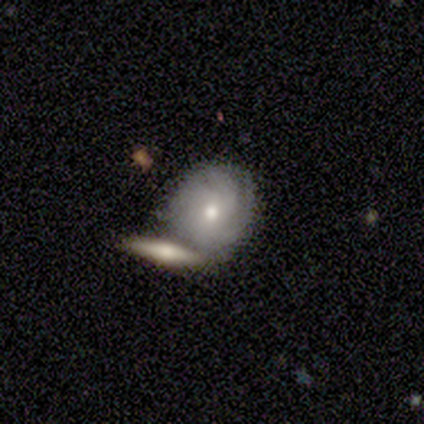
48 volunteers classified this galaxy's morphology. A featured or disk galaxy (71%) with no bar (85%), tight (69%) spiral arms (79%) and a moderate central bulge (61%). Merging: none (41%).